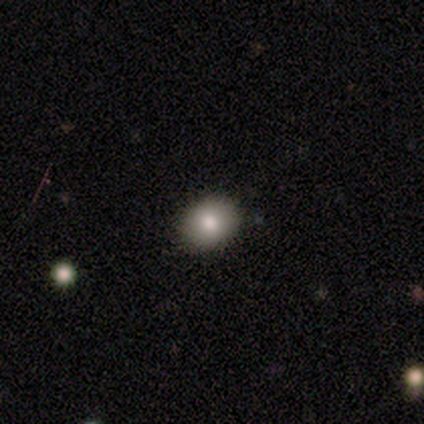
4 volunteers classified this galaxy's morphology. Smooth or featured?
  - smooth: 75% *
  - featured or disk: 25%
  - star or artifact: 0%
How rounded?
  - in between: 67% *
  - round: 33%
  - cigar-shaped: 0%
Merging?
  - none: 100% *
  - minor disturbance: 0%
  - major disturbance: 0%
  - merger: 0%